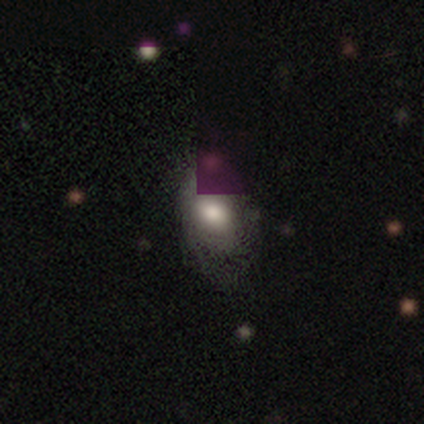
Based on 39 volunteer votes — smooth-or-featured: smooth: 69% | featured or disk: 18% | star or artifact: 13%
  how-rounded: in between: 78% | round: 19% | cigar-shaped: 4%
  merging: none: 71% | minor disturbance: 18% | major disturbance: 12% | merger: 0%